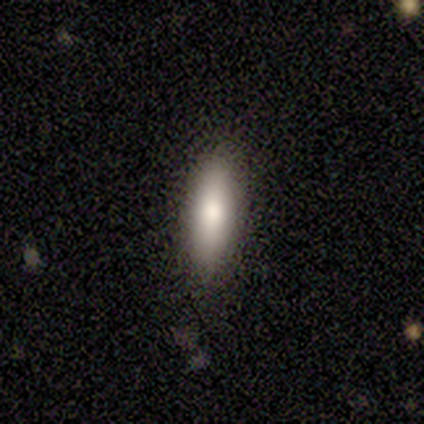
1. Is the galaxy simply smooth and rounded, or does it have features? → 80% smooth, 20% featured or disk, 0% star or artifact.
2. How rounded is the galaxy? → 75% cigar-shaped, 25% in between, 0% round.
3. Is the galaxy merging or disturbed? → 40% none (tied), 40% minor disturbance (tied), 20% major disturbance, 0% merger.